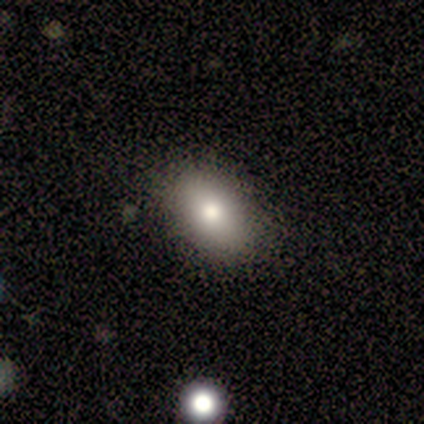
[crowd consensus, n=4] Smooth or featured? smooth (50%)
How rounded? in between (100%)
Merging? none (100%)